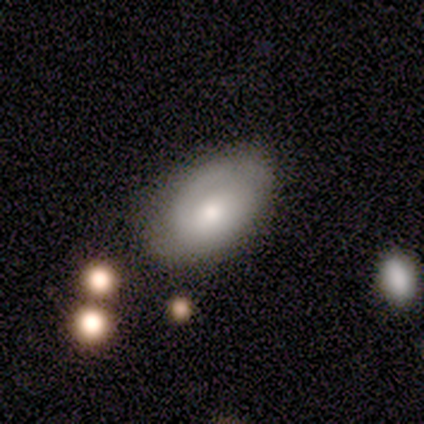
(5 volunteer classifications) This is marginally a smooth galaxy (40%, tied with featured or disk). How rounded: clearly in between (100%). Merging: possibly none (50%).